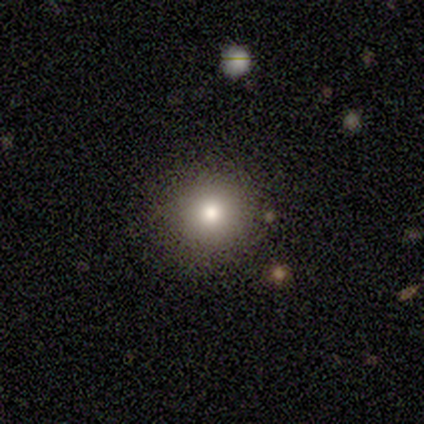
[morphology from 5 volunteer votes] type=smooth (80%); roundness=round (100%); merging=none (75%).